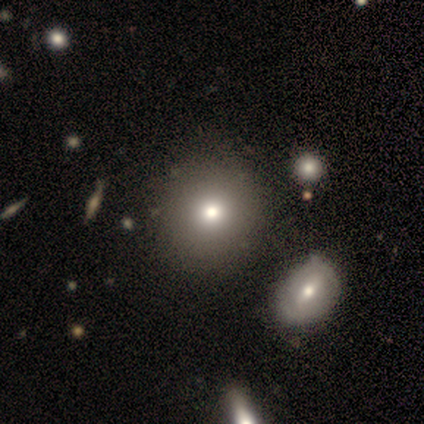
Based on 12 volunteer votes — This appears to be a smooth galaxy with no disk features (92%) that is round (91%). Merging: none (83%).